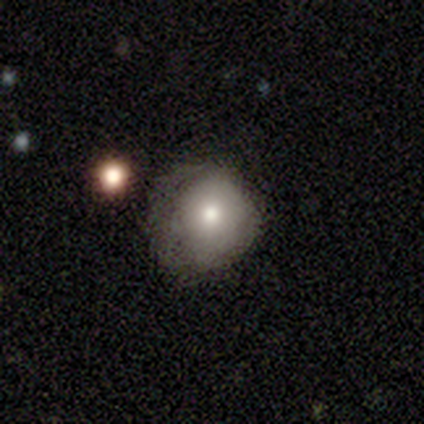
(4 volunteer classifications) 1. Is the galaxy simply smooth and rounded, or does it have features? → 75% smooth, 25% featured or disk, 0% star or artifact.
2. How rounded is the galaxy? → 100% round, 0% in between, 0% cigar-shaped.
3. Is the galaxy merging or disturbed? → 75% none, 25% major disturbance, 0% minor disturbance, 0% merger.